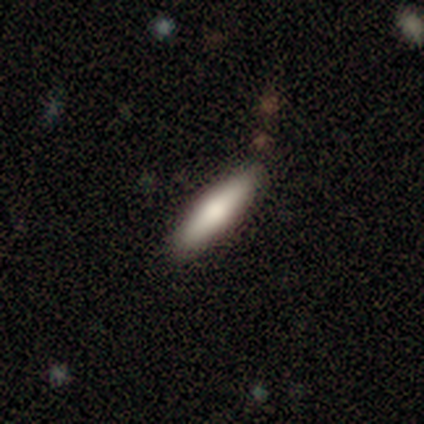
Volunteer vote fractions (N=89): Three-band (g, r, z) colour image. It shows a smooth galaxy with no disk features (76%) that is cigar-shaped (74%). Merging: none (85%).